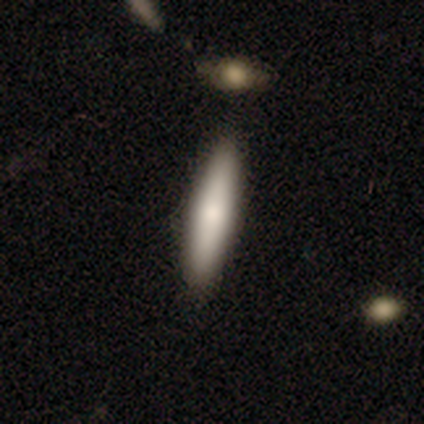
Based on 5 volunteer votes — Smooth or featured? smooth (60%)
How rounded? cigar-shaped (67%)
Merging? none (80%)